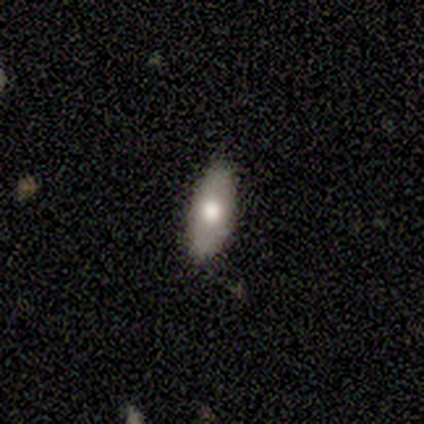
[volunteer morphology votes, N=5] Smooth or featured?
  - smooth: 60% *
  - featured or disk: 40%
  - star or artifact: 0%
How rounded?
  - in between: 67% *
  - cigar-shaped: 33%
  - round: 0%
Merging?
  - none: 80% *
  - minor disturbance: 20%
  - major disturbance: 0%
  - merger: 0%